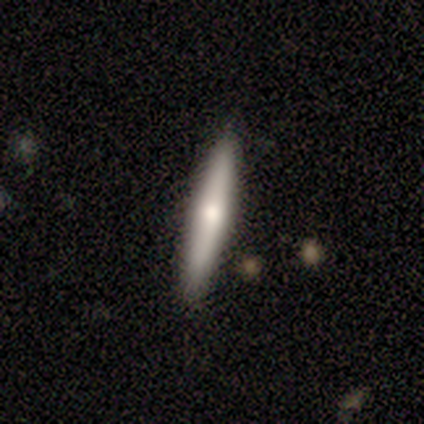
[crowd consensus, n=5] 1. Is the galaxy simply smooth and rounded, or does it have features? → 80% featured or disk, 20% star or artifact, 0% smooth.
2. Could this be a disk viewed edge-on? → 100% yes, 0% no.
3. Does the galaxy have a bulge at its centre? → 100% rounded, 0% boxy, 0% none.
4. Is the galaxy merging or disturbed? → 75% none, 25% minor disturbance, 0% major disturbance, 0% merger.